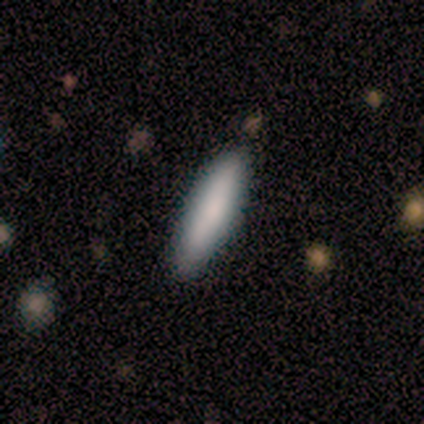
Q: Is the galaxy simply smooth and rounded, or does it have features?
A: smooth — 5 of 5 (100%).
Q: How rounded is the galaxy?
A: cigar-shaped — 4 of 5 (80%).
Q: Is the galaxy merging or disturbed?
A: none — 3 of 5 (60%).